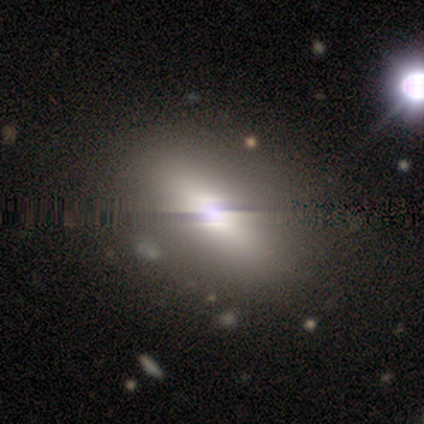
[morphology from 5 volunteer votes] A smooth galaxy with no disk features (80%) that is in between round and cigar-shaped (100%). Merging: none (100%).